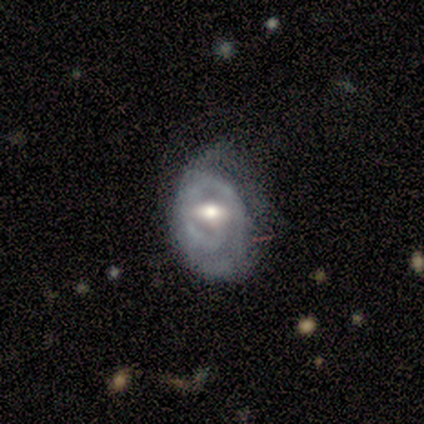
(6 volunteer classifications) featured or disk 67%, smooth 33%, star or artifact 0%. Down the decision tree: edge-on disk — no (100%); bar — no (50%); spiral arms — yes (75%); spiral arm count — can't tell (100%); spiral winding — loose (67%); bulge size — moderate (50%); merging — none (67%).